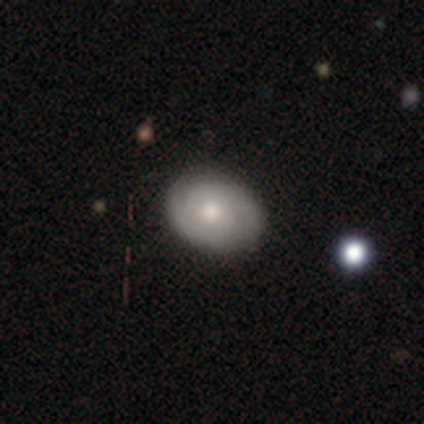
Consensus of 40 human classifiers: Overall: featured or disk (62%; smooth 35%). Edge-on disk: no (100%). Bar: no (88%). Spiral arms: yes (92%). Spiral arm count: 2 (70%). Spiral winding: tight (65%). Bulge size: moderate (72%). Merging: none (77%).